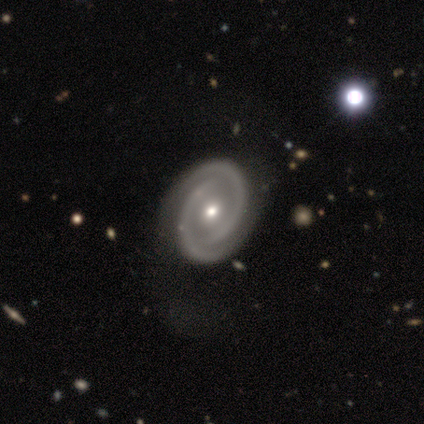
A featured or disk galaxy (80%) with no bar (75%), 2 (100%) tight (50%, tied with medium) spiral arms (100%) and a moderate central bulge (75%).

Vote fractions:
- Smooth or featured? featured or disk: 80% / smooth: 20% / star or artifact: 0%
- Edge-on disk? no: 100% / yes: 0%
- Bar? no: 75% / weak: 25% / strong: 0%
- Spiral arms? yes: 100% / no: 0%
- Spiral winding? tight: 50% (tied) / medium: 50% (tied) / loose: 0%
- Spiral arm count? 2: 100% / 1: 0% / 3: 0% / 4: 0% / more than 4: 0% / can't tell: 0%
- Bulge size? moderate: 75% / small: 25% / dominant: 0% / large: 0% / none: 0%
- Merging? none: 60% / minor disturbance: 20% / major disturbance: 20% / merger: 0%